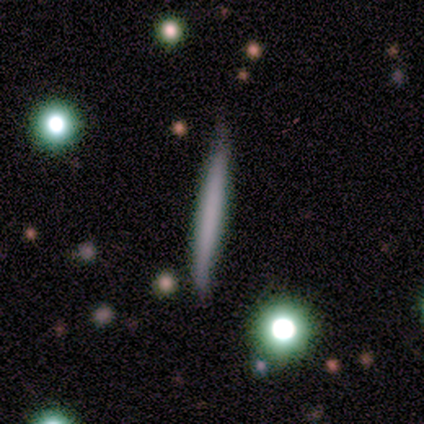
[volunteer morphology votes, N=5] type=smooth (80%); roundness=cigar-shaped (100%); merging=none (100%).